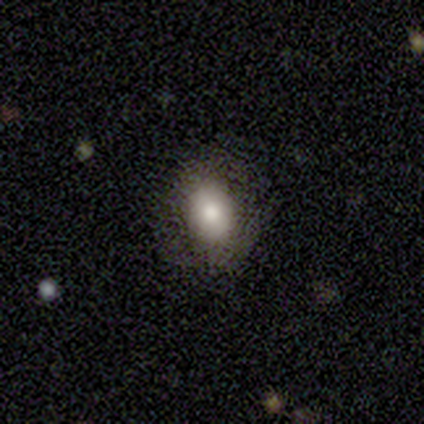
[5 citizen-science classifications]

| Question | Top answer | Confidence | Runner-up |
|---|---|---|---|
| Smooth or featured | smooth | 60% | featured or disk (40%) |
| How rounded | round | 67% | in between (33%) |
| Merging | none | 100% | — |